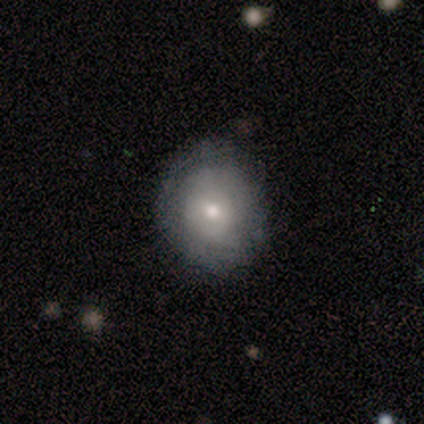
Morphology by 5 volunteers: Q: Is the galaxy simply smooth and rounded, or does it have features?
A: smooth — 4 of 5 (80%).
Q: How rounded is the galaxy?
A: round — 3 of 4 (75%).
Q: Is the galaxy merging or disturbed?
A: none — 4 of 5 (80%).